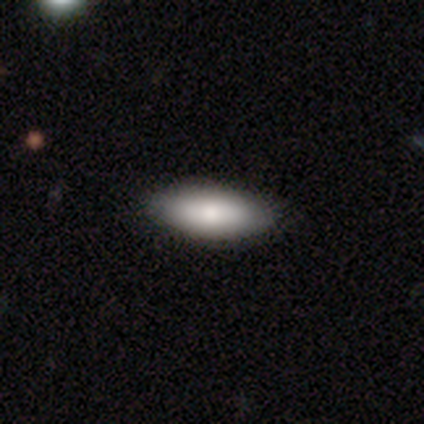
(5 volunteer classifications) Smooth or featured: smooth — 100%
How rounded: in between — 80% (round — 20%)
Merging: none — 80% (minor disturbance — 20%)